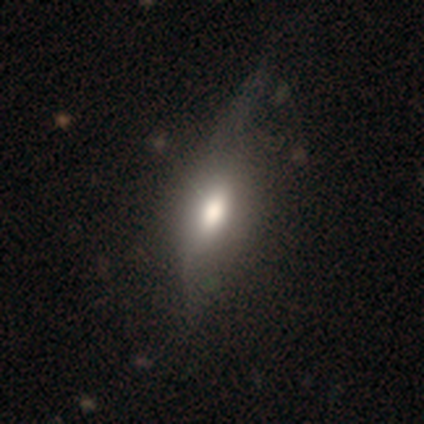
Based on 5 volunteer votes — Overall: smooth (100%). How rounded: in between (80%). Merging: none (80%).